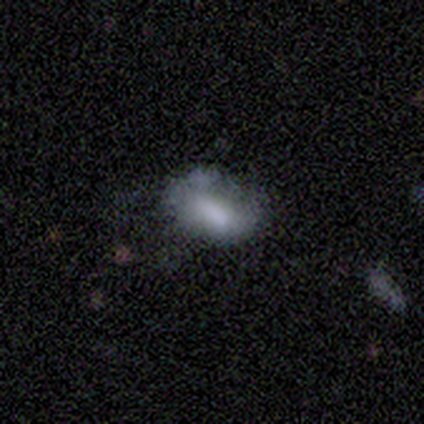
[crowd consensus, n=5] Smooth or featured? 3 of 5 (60%) said smooth. How rounded? 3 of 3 (100%) said in between. Merging? 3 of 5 (60%) said minor disturbance.